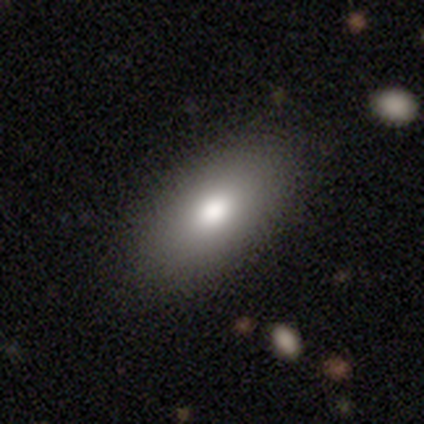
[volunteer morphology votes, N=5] smooth 80%, star or artifact 20%, featured or disk 0%. Down the decision tree: how rounded — in between (100%); merging — none (75%).